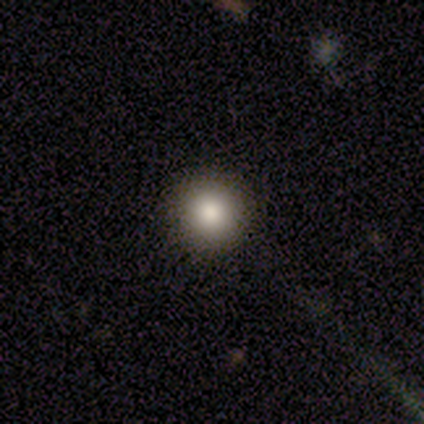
Smooth or featured? 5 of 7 (71%) said smooth. How rounded? 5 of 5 (100%) said round. Merging? 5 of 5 (100%) said none.